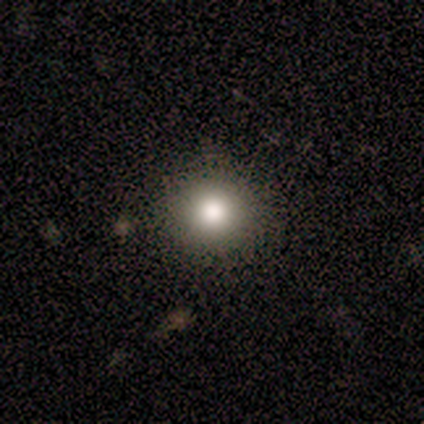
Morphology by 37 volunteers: Overall: smooth (73%). How rounded: round (96%). Merging: none (87%).